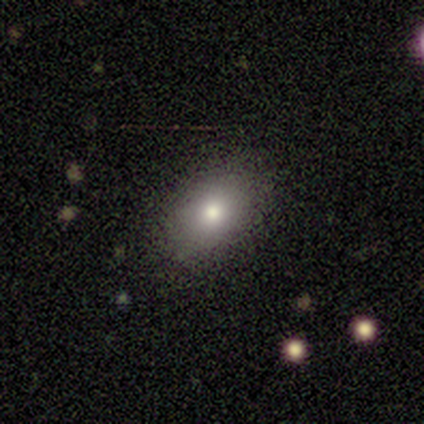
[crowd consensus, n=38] Q: Smooth or featured?
A: smooth (79%); runner-up: featured or disk (11%)
Q: How rounded?
A: in between (80%); runner-up: round (17%)
Q: Merging?
A: none (91%); runner-up: minor disturbance (9%)